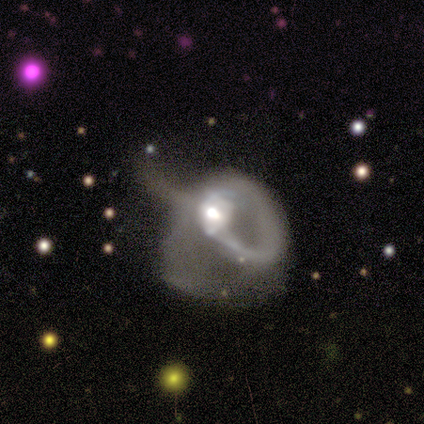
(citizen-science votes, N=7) Smooth or featured? featured or disk (86%)
Edge-on disk? no (67%)
Bar? no (75%)
Spiral arms? yes (50%, tied with no)
Spiral winding? tight (50%, tied with loose)
Spiral arm count? 1 (50%, tied with 2)
Bulge size? moderate (100%)
Merging? major disturbance (71%)